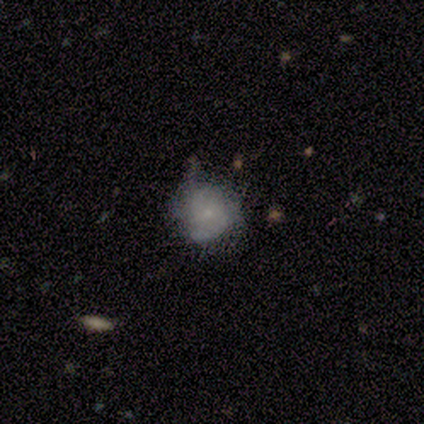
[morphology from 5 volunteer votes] Smooth or featured: smooth — 60% (featured or disk — 40%)
How rounded: round — 100%
Merging: minor disturbance — 60% (none — 40%)